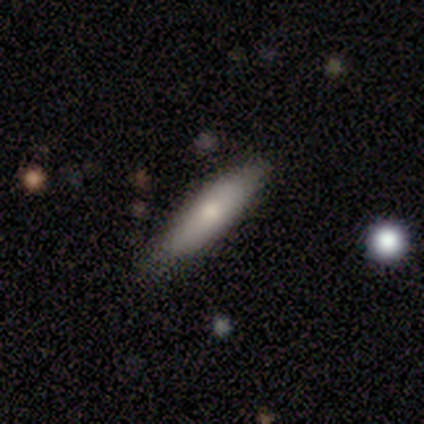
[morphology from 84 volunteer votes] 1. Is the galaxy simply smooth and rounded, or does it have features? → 69% smooth, 27% featured or disk, 4% star or artifact.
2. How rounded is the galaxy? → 83% cigar-shaped, 16% in between, 2% round.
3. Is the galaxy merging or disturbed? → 74% none, 20% minor disturbance, 6% major disturbance, 0% merger.